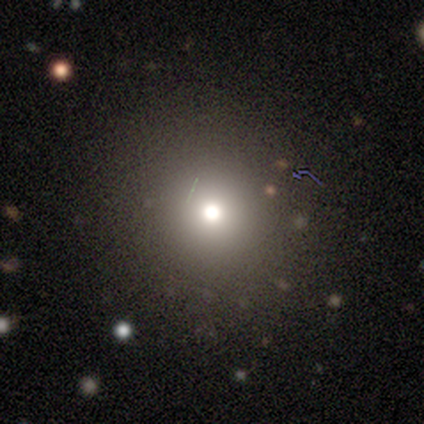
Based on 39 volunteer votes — Morphology: type=smooth (64%); roundness=round (92%); merging=none (80%).